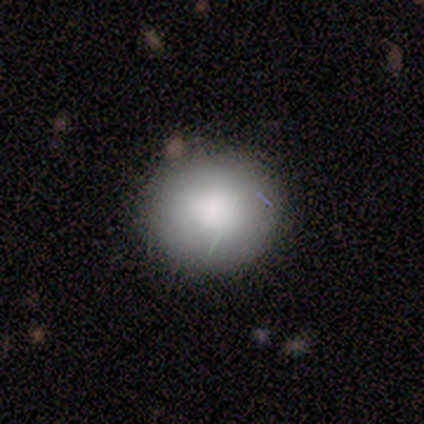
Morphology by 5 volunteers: Smooth or featured? smooth (60%)
How rounded? in between (67%)
Merging? none (100%)